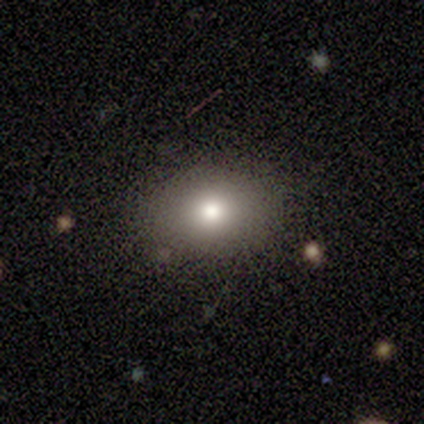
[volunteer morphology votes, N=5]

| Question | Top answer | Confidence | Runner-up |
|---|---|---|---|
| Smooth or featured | smooth | 80% | star or artifact (20%) |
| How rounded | round | 50% | tied: in between (50%) |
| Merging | none | 100% | — |